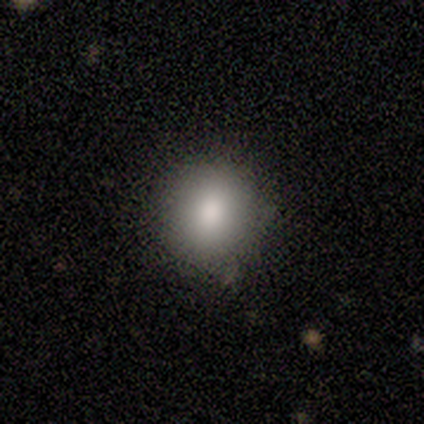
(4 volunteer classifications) smooth_or_featured: smooth (p=0.75) [alt: star or artifact p=0.25]
how_rounded: round (p=1.00)
merging: none (p=1.00)